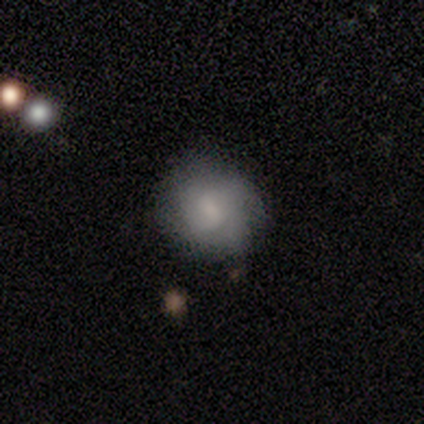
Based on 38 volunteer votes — A smooth galaxy with no disk features (74%) that is round (82%). Merging: none (78%).